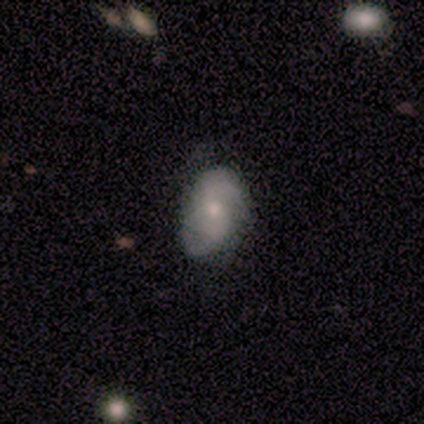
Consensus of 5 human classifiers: smooth-or-featured: featured or disk: 60% | smooth: 40% | star or artifact: 0%
  disk-edge-on: no: 100% | yes: 0%
    bar: weak: 67% | strong: 33% | no: 0%
    has-spiral-arms: yes: 100% | no: 0%
      spiral-winding: tight: 33% (tied) | medium: 33% (tied) | loose: 33% (tied)
      spiral-arm-count: 2: 67% | more than 4: 33% | 1: 0% | 3: 0% | 4: 0% | can't tell: 0%
    bulge-size: moderate: 67% | large: 33% | dominant: 0% | small: 0% | none: 0%
  merging: none: 40% (tied) | minor disturbance: 40% (tied) | major disturbance: 20% | merger: 0%